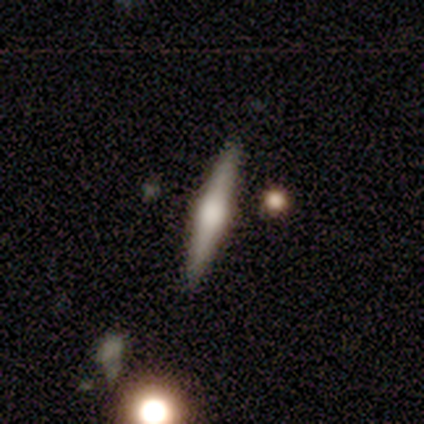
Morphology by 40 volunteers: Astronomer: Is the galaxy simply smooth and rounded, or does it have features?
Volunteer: featured or disk — 70%.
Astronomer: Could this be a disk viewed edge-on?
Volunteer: yes — 100%.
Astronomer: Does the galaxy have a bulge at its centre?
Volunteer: rounded — 93%.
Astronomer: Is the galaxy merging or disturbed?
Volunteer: none — 100%.